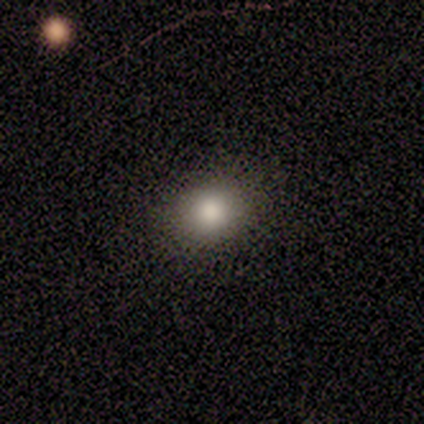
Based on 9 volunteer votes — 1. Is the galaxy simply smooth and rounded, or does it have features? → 78% smooth, 11% featured or disk, 11% star or artifact.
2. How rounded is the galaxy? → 71% round, 29% in between, 0% cigar-shaped.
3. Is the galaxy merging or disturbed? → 75% none, 25% minor disturbance, 0% major disturbance, 0% merger.